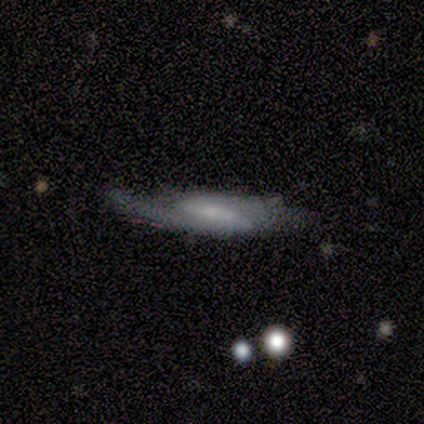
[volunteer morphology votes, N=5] Smooth or featured?
  - featured or disk: 60% *
  - smooth: 20%
  - star or artifact: 20%
Edge-on disk?
  - yes: 67% *
  - no: 33%
Edge-on bulge?
  - none: 50% * (tied)
  - rounded: 50% * (tied)
  - boxy: 0%
Merging?
  - none: 50% *
  - minor disturbance: 25%
  - major disturbance: 25%
  - merger: 0%